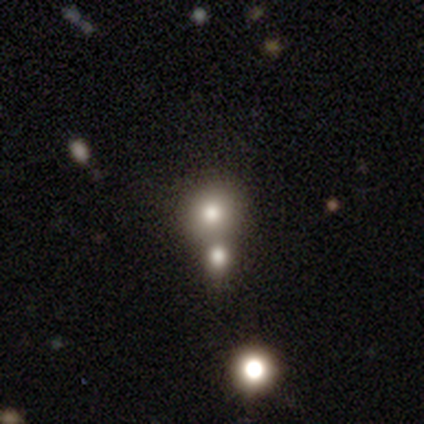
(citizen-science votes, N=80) A smooth galaxy with no disk features (76%) that is round (92%).

Vote fractions:
- Smooth or featured? smooth: 76% / star or artifact: 15% / featured or disk: 9%
- How rounded? round: 92% / in between: 8% / cigar-shaped: 0%
- Merging? merger: 47% / none: 31% / minor disturbance: 4% / major disturbance: 0%